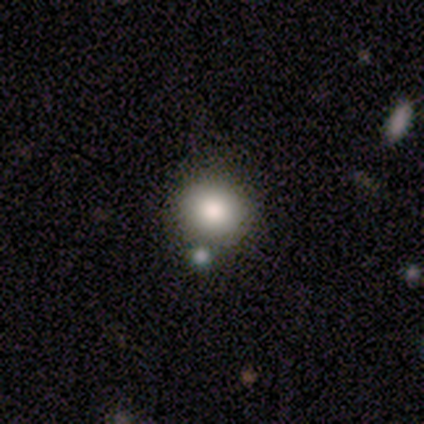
smooth 89%, featured or disk 5%, star or artifact 5%. Down the decision tree: how rounded — round (71%); merging — none (69%).